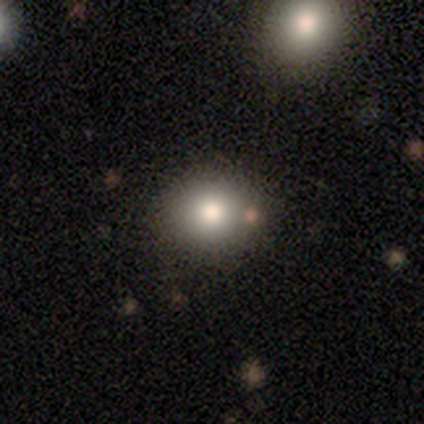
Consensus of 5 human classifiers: smooth-or-featured: smooth: 80% | star or artifact: 20% | featured or disk: 0%
  how-rounded: round: 75% | in between: 25% | cigar-shaped: 0%
  merging: none: 100% | minor disturbance: 0% | major disturbance: 0% | merger: 0%